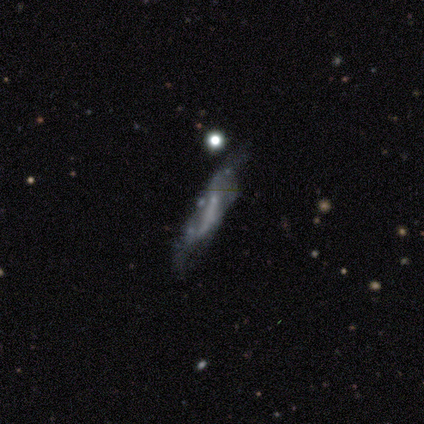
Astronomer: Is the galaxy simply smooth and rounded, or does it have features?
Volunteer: featured or disk — 62%.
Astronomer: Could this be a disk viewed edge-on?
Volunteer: no — 65%.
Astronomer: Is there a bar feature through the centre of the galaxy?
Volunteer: strong — 38%, tied with no at 38%.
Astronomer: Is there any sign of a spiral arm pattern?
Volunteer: yes — 54% (runner-up: no, 46%).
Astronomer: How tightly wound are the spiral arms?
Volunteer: loose — 86%.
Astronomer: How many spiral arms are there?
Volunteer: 2 — 57% (runner-up: can't tell, 43%).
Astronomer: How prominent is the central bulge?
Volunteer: none — 46% (runner-up: small, 31%).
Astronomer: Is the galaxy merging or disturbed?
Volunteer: minor disturbance — 38% (runner-up: none, 35%).